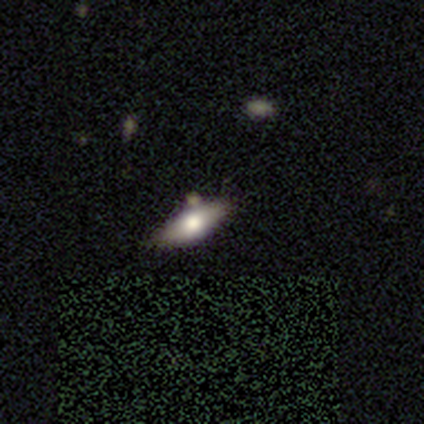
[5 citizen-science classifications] smooth_or_featured: smooth (p=0.80) [alt: featured or disk p=0.20]
how_rounded: in between (p=0.50) [tied with: cigar-shaped p=0.50]
merging: none (p=1.00)